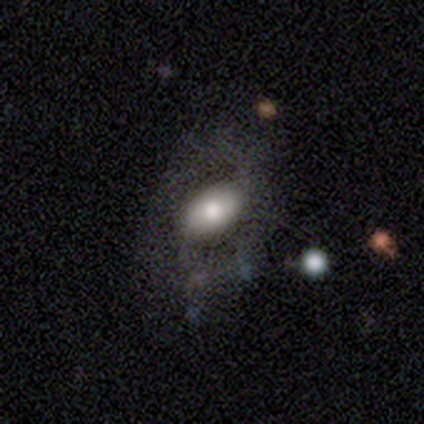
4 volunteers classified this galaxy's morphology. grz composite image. It shows a smooth galaxy with no disk features (75%) that is in between round and cigar-shaped (100%). Merging: none (33%, tied with minor disturbance and major disturbance).